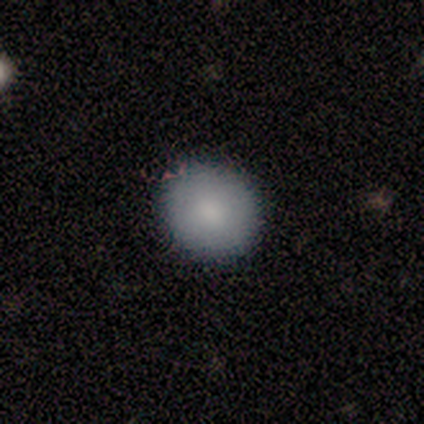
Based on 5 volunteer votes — Smooth or featured: smooth — 80% (featured or disk — 20%)
How rounded: round — 50% (tied with in between — 50%)
Merging: none — 80% (minor disturbance — 20%)